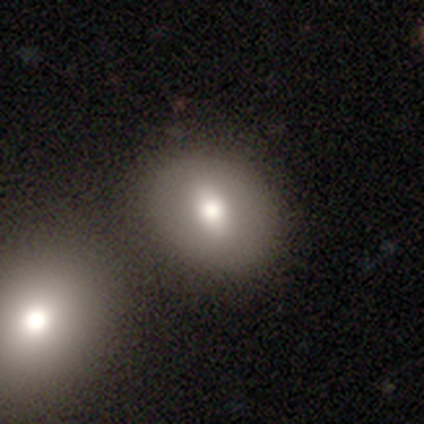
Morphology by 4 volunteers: Q: Smooth or featured?
A: smooth (75%); runner-up: featured or disk (25%)
Q: How rounded?
A: in between (67%); runner-up: round (33%)
Q: Merging?
A: none (75%); runner-up: merger (25%)